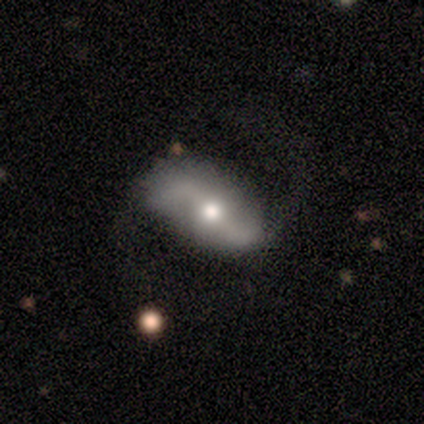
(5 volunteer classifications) Smooth or featured? featured or disk (100%)
Edge-on disk? no (100%)
Bar? strong (60%)
Spiral arms? yes (100%)
Spiral winding? loose (100%)
Spiral arm count? 2 (100%)
Bulge size? moderate (80%)
Merging? none (80%)